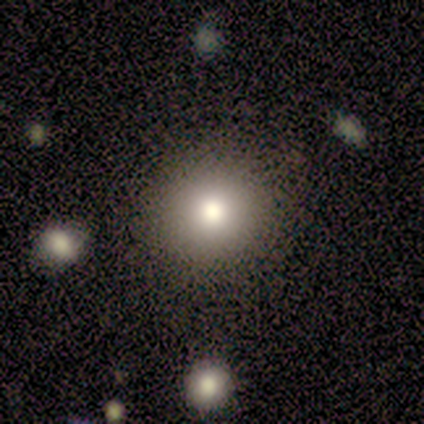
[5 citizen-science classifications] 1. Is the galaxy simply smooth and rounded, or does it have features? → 60% smooth, 40% featured or disk, 0% star or artifact.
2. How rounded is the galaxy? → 67% round, 33% in between, 0% cigar-shaped.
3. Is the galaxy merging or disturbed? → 100% none, 0% minor disturbance, 0% major disturbance, 0% merger.